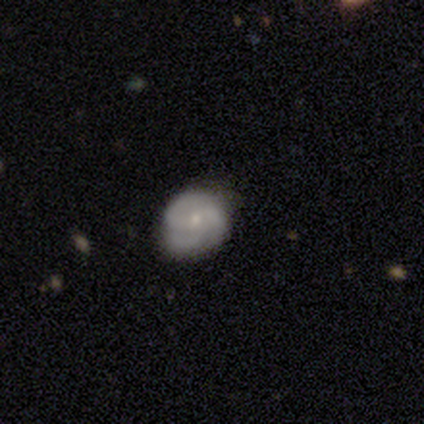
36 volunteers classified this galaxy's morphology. Smooth or featured? 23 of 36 (64%) said featured or disk. Edge-on disk? 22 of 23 (96%) said no. Bar? 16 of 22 (73%) said no. Spiral arms? 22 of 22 (100%) said yes. Spiral winding? 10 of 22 (45%) said medium. Spiral arm count? 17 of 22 (77%) said 3. Bulge size? 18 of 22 (82%) said small. Merging? 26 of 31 (84%) said none.